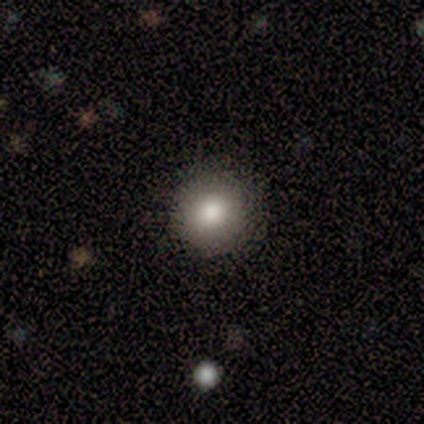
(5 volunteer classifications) Smooth or featured?
  - smooth: 80% *
  - featured or disk: 20%
  - star or artifact: 0%
How rounded?
  - round: 75% *
  - in between: 25%
  - cigar-shaped: 0%
Merging?
  - none: 100% *
  - minor disturbance: 0%
  - major disturbance: 0%
  - merger: 0%